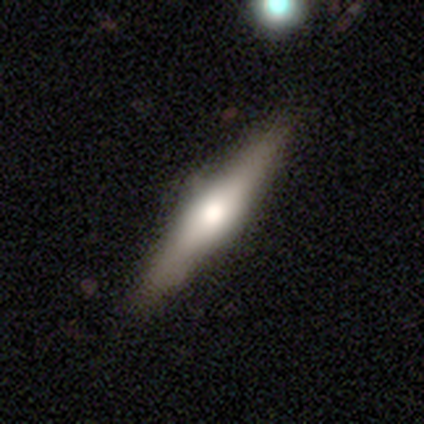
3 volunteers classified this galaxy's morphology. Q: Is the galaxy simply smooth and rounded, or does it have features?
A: smooth — 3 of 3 (100%).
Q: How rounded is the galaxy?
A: cigar-shaped — 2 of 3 (67%).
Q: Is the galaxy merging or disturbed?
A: none — 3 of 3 (100%).